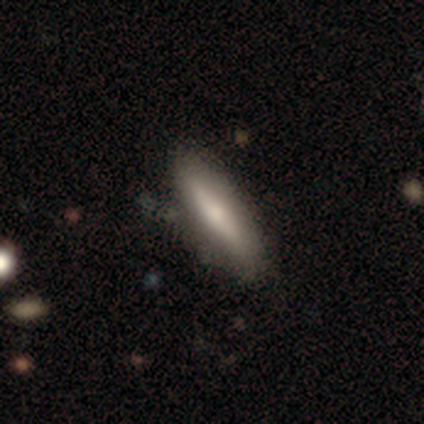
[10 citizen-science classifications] Smooth or featured: smooth — 60% (featured or disk — 30%)
How rounded: cigar-shaped — 83% (in between — 17%)
Merging: none — 89% (minor disturbance — 11%)